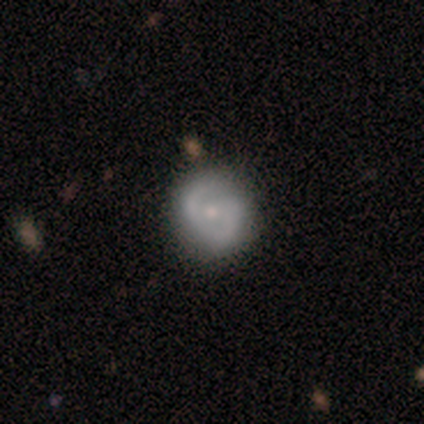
Smooth or featured: featured or disk — 62% (smooth — 25%)
Edge-on disk: no — 100%
Bar: weak — 60% (no — 40%)
Spiral arms: yes — 80% (no — 20%)
Spiral winding: tight — 50% (medium — 25%)
Spiral arm count: 2 — 100%
Bulge size: small — 80% (moderate — 20%)
Merging: none — 100%